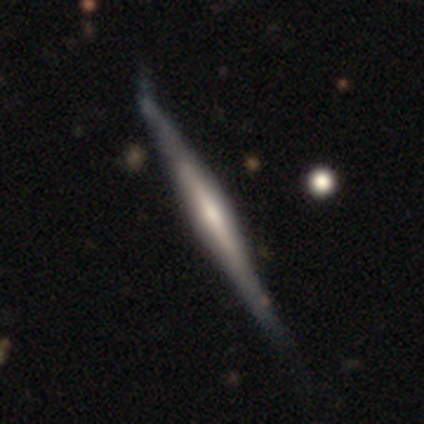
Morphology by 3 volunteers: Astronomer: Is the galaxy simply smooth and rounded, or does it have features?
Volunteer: featured or disk — 100%.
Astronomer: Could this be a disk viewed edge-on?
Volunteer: yes — 100%.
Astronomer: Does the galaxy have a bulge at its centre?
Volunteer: rounded — 100%.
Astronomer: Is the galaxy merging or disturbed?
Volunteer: minor disturbance — 67%.